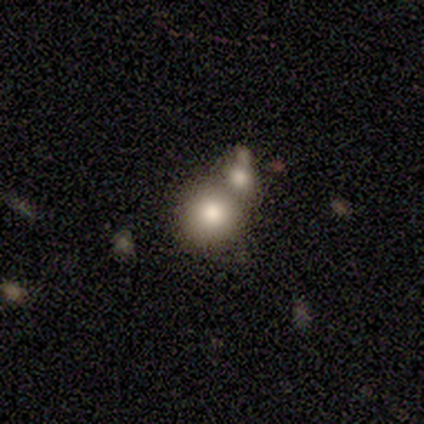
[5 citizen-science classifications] Smooth or featured? smooth (60%)
How rounded? round (100%)
Merging? none (67%)